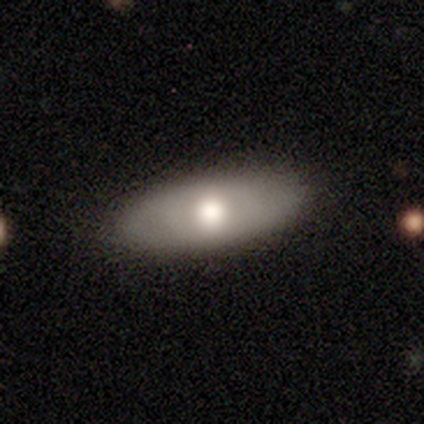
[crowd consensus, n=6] Smooth or featured?
  - smooth: 83% *
  - featured or disk: 17%
  - star or artifact: 0%
How rounded?
  - in between: 80% *
  - cigar-shaped: 20%
  - round: 0%
Merging?
  - none: 100% *
  - minor disturbance: 0%
  - major disturbance: 0%
  - merger: 0%